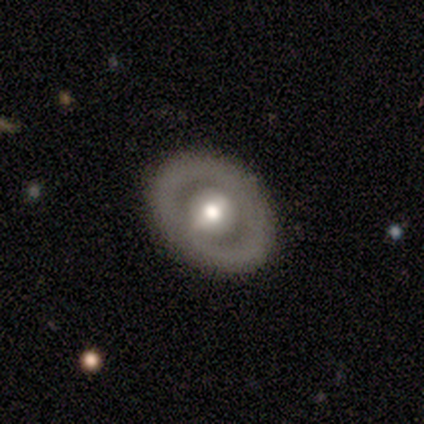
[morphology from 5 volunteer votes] A featured or disk galaxy (60%) with a weak bar (67%), no spiral arms (100%) and a moderate central bulge (67%).

Vote fractions:
- Smooth or featured? featured or disk: 60% / smooth: 40% / star or artifact: 0%
- Edge-on disk? no: 100% / yes: 0%
- Bar? weak: 67% / no: 33% / strong: 0%
- Spiral arms? no: 100% / yes: 0%
- Bulge size? moderate: 67% / small: 33% / dominant: 0% / large: 0% / none: 0%
- Merging? none: 100% / minor disturbance: 0% / major disturbance: 0% / merger: 0%